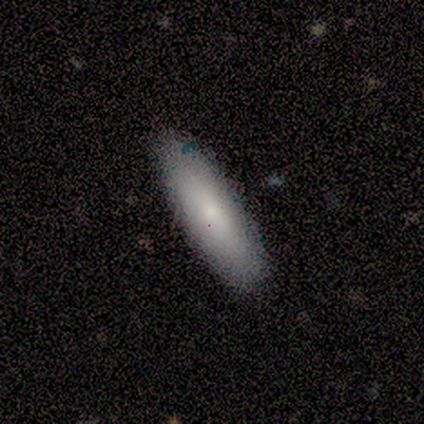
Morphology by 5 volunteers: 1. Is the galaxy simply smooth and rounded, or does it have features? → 100% smooth, 0% featured or disk, 0% star or artifact.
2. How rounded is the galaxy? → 60% in between, 40% cigar-shaped, 0% round.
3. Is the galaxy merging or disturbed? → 100% none, 0% minor disturbance, 0% major disturbance, 0% merger.